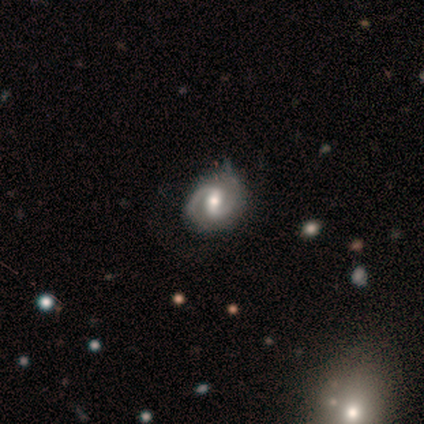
Q: Smooth or featured?
A: featured or disk (100%)
Q: Edge-on disk?
A: no (100%)
Q: Bar?
A: weak (80%); runner-up: strong (20%)
Q: Spiral arms?
A: yes (100%)
Q: Spiral winding?
A: medium (80%); runner-up: tight (20%)
Q: Spiral arm count?
A: 2 (100%)
Q: Bulge size?
A: moderate (100%)
Q: Merging?
A: none (100%)